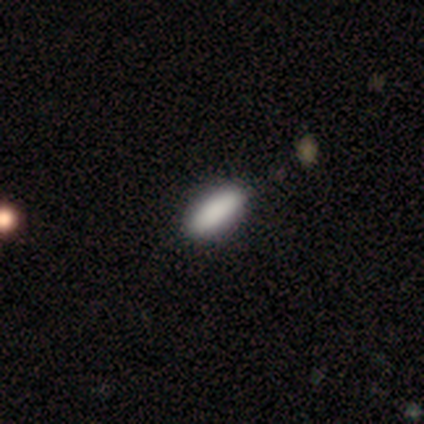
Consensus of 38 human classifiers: Volunteers were most divided on "how rounded": in between: 77%, cigar-shaped: 23%, round: 0%. More confident: merging — none (97%); smooth or featured — smooth (92%).